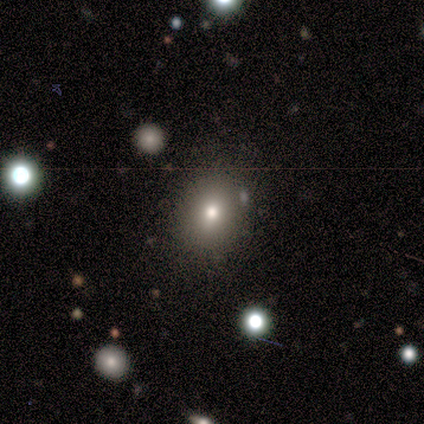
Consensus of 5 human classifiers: Morphology: type=smooth (60%); roundness=round (67%); merging=none (100%).